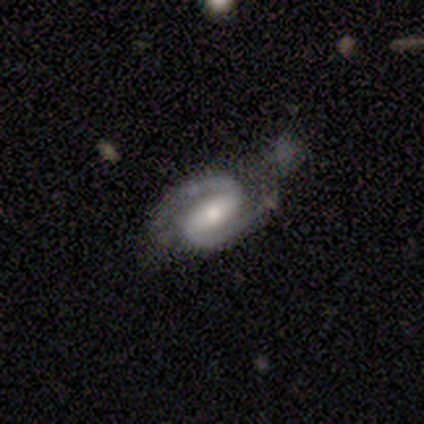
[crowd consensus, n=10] This appears to be a featured or disk galaxy (100%) with a weak bar (56%), 2 (89%) medium (89%) spiral arms (100%) and a moderate central bulge (56%). Merging: none (80%).